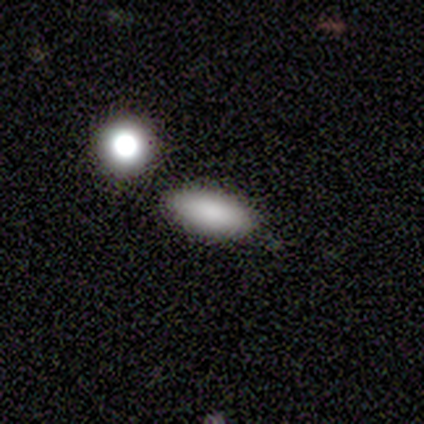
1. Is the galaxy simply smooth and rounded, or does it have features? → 100% smooth, 0% featured or disk, 0% star or artifact.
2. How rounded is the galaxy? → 60% in between, 40% cigar-shaped, 0% round.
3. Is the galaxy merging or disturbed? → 80% none, 20% minor disturbance, 0% major disturbance, 0% merger.